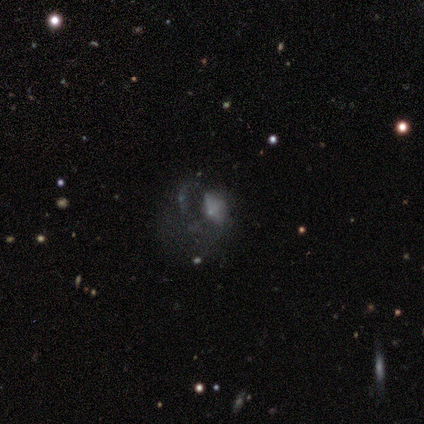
smooth_or_featured: featured or disk (p=0.60) [alt: smooth p=0.40]
disk_edge_on: no (p=1.00)
bar: no (p=1.00)
has_spiral_arms: no (p=1.00)
bulge_size: none (p=0.67) [alt: small p=0.33]
merging: major disturbance (p=0.60) [alt: none p=0.20]